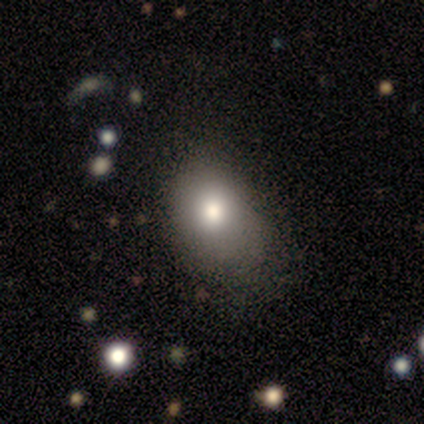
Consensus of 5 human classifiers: A smooth galaxy with no disk features (60%) that is in between round and cigar-shaped (67%).

Vote fractions:
- Smooth or featured? smooth: 60% / featured or disk: 40% / star or artifact: 0%
- How rounded? in between: 67% / round: 33% / cigar-shaped: 0%
- Merging? minor disturbance: 60% / none: 20% / major disturbance: 20% / merger: 0%